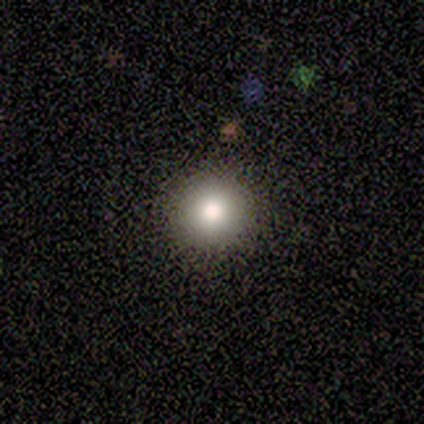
A smooth galaxy with no disk features (84%) that is round (100%). Merging: none (100%).